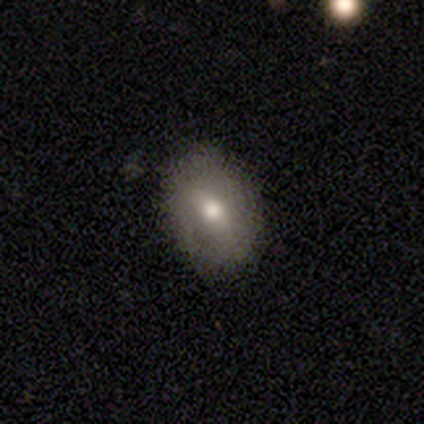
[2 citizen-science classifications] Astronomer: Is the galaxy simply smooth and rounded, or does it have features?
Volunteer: smooth — 50%, tied with featured or disk at 50%.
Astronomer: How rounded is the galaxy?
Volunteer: round — 100%.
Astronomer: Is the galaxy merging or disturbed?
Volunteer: minor disturbance — 100%.